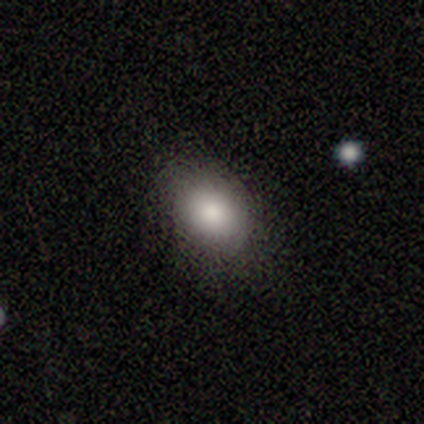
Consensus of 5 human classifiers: Volunteers were most divided on "how rounded": round: 67%, in between: 33%, cigar-shaped: 0%. More confident: merging — none (75%); smooth or featured — smooth (60%).